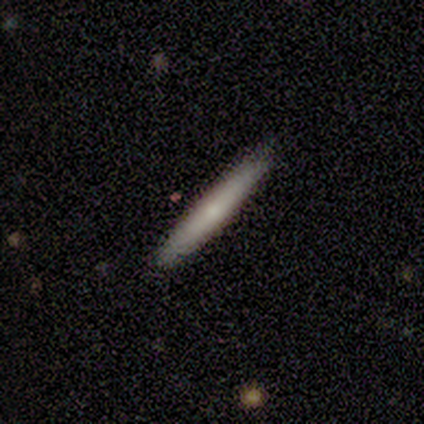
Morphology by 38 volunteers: smooth-or-featured: smooth: 66% | featured or disk: 21% | star or artifact: 13%
  how-rounded: cigar-shaped: 96% | in between: 4% | round: 0%
  merging: none: 94% | minor disturbance: 6% | major disturbance: 0% | merger: 0%